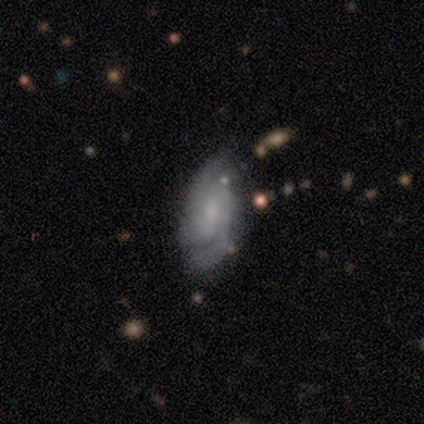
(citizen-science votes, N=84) This is likely a featured or disk galaxy (75%). It is clearly not viewed edge-on (97%). Bar: possibly no (49%). Spiral arm pattern: clearly yes (93%). Spiral arm count: possibly 2 (60%). Spiral winding: marginally medium (40%). Central bulge: likely small (67%). Merging: likely none (69%).